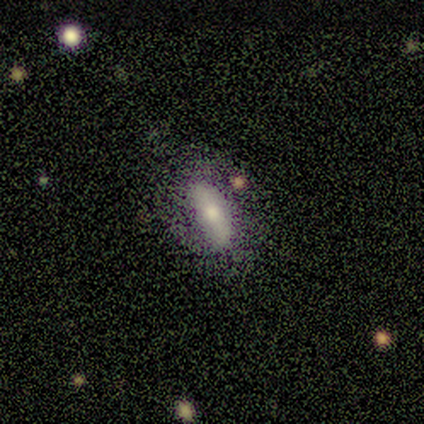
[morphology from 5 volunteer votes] Smooth or featured? smooth (60%)
How rounded? in between (67%)
Merging? none (40%, tied with minor disturbance)